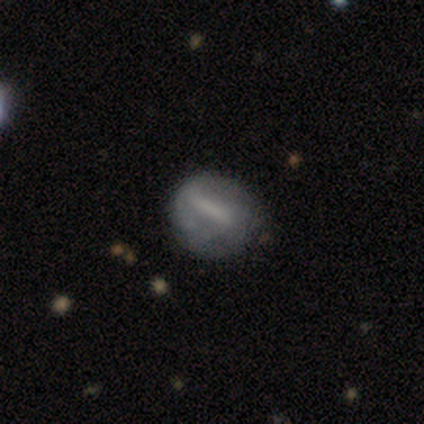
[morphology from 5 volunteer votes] Overall: smooth (60%; featured or disk 40%). How rounded: round (100%). Merging: none (80%).